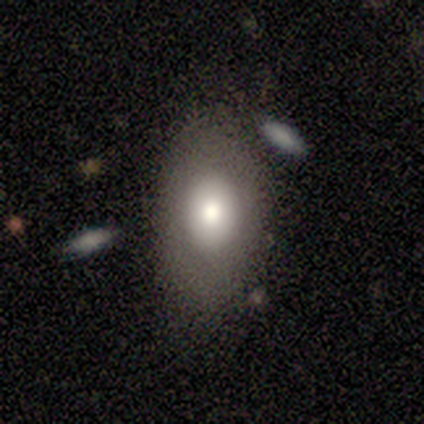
Smooth or featured: smooth — 80% (featured or disk — 20%)
How rounded: in between — 100%
Merging: none — 100%